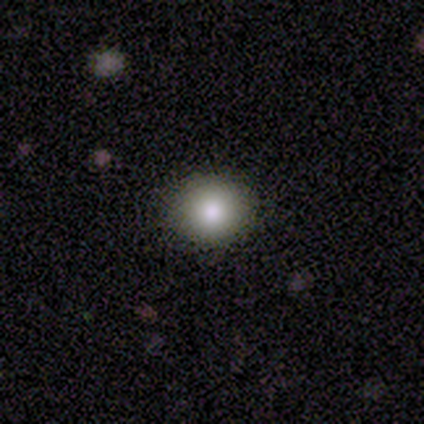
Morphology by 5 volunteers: Overall: smooth (100%). How rounded: round (60%; in between 40%). Merging: none (80%).